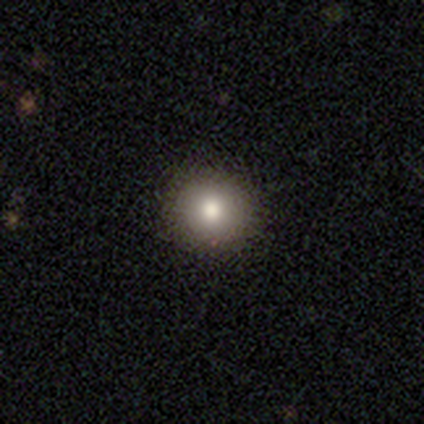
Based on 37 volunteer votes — Smooth or featured? 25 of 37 (68%) said smooth. How rounded? 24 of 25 (96%) said round. Merging? 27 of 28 (96%) said none.